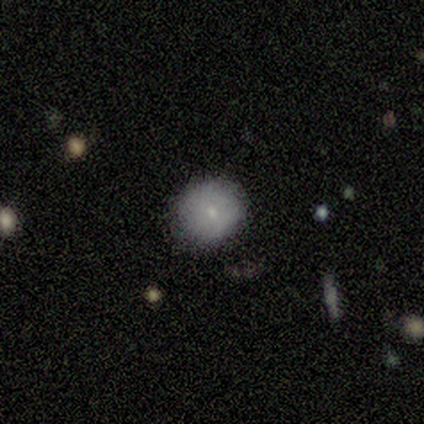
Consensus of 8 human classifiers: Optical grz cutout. It shows a smooth galaxy with no disk features (88%) that is round (100%). Merging: none (88%).